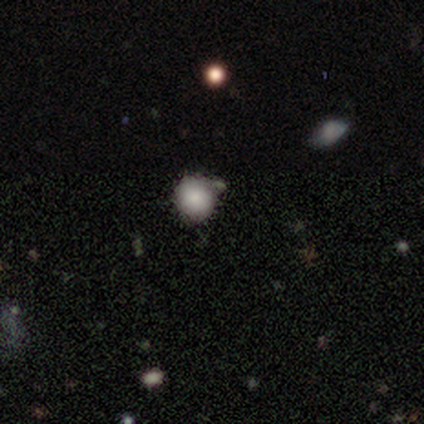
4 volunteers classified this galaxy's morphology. Q: Smooth or featured?
A: smooth (100%)
Q: How rounded?
A: round (75%); runner-up: in between (25%)
Q: Merging?
A: none (75%); runner-up: merger (25%)